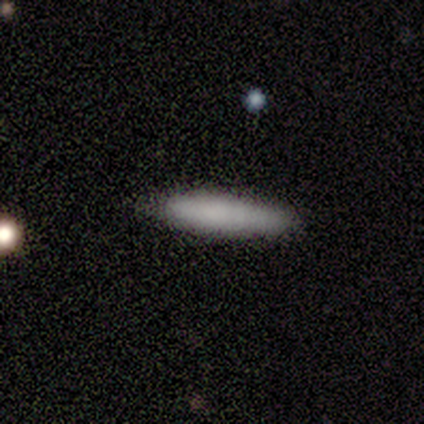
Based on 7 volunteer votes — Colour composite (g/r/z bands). It shows a smooth galaxy with no disk features (100%) that is cigar-shaped (71%). Merging: none (100%).